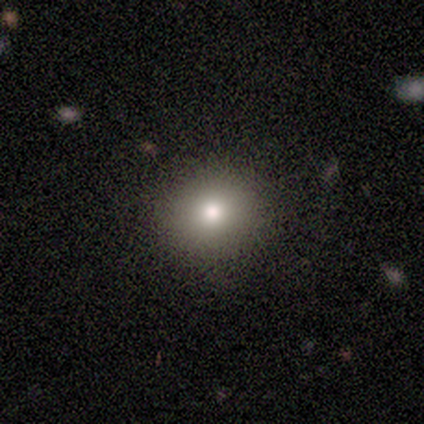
Volunteers were most divided on "smooth or featured": smooth: 60%, featured or disk: 20%, star or artifact: 20%. More confident: how rounded — round (100%); merging — none (75%).